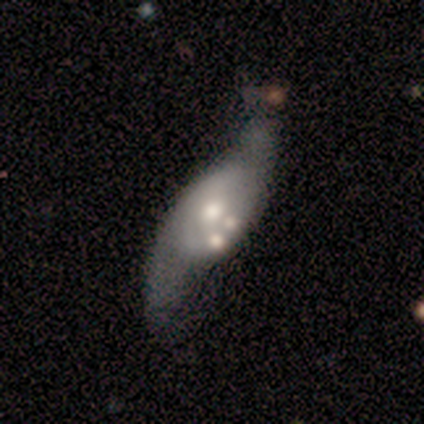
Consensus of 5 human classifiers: featured or disk 60%, smooth 20%, star or artifact 20%. Down the decision tree: edge-on disk — no (100%); bar — no (100%); spiral arms — yes (67%); spiral arm count — 2 (100%); spiral winding — loose (100%); bulge size — moderate (100%); merging — major disturbance (50%).